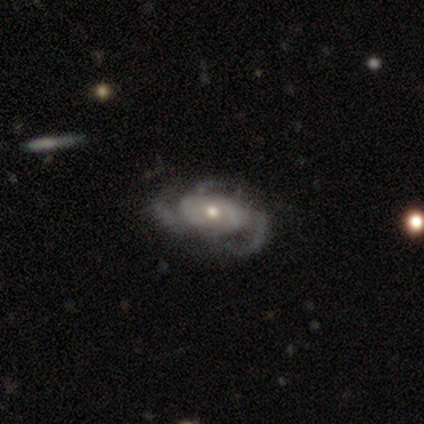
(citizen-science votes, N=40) A featured or disk galaxy (80%) with no bar (87%), 3 (72%) medium (41%) spiral arms (94%) and a moderate central bulge (65%).

Vote fractions:
- Smooth or featured? featured or disk: 80% / star or artifact: 12% / smooth: 8%
- Edge-on disk? no: 97% / yes: 3%
- Bar? no: 87% / weak: 13% / strong: 0%
- Spiral arms? yes: 94% / no: 6%
- Spiral winding? medium: 41% / tight: 31% / loose: 28%
- Spiral arm count? 3: 72% / can't tell: 21% / 2: 7% / 1: 0% / 4: 0% / more than 4: 0%
- Bulge size? moderate: 65% / small: 32% / none: 3% / dominant: 0% / large: 0%
- Merging? none: 57% / major disturbance: 29% / minor disturbance: 14% / merger: 0%